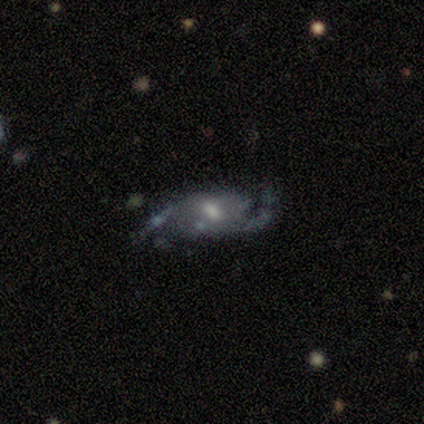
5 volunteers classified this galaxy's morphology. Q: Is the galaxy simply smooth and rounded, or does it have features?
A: featured or disk — 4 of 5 (80%).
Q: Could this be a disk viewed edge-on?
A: no — 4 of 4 (100%).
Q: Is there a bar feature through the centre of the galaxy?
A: weak — 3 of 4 (75%).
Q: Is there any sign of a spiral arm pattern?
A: yes — 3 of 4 (75%).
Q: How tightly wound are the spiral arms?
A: medium — 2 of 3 (67%).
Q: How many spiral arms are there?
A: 1 — 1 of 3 (33%, tied with 2 and 3).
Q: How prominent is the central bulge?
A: small — 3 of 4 (75%).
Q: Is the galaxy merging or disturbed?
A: none — 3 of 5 (60%).